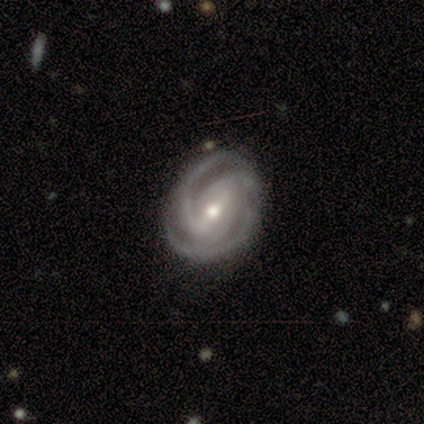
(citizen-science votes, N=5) Smooth or featured? 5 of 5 (100%) said featured or disk. Edge-on disk? 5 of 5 (100%) said no. Bar? 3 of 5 (60%) said weak. Spiral arms? 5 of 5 (100%) said yes. Spiral winding? 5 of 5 (100%) said tight. Spiral arm count? 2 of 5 (40%, tied with 3) said 2. Bulge size? 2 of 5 (40%, tied with small) said moderate. Merging? 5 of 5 (100%) said none.